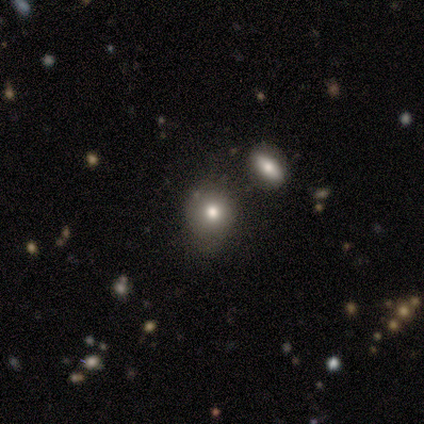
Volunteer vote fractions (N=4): smooth 75%, star or artifact 25%, featured or disk 0%. Down the decision tree: how rounded — round (67%); merging — none (100%).